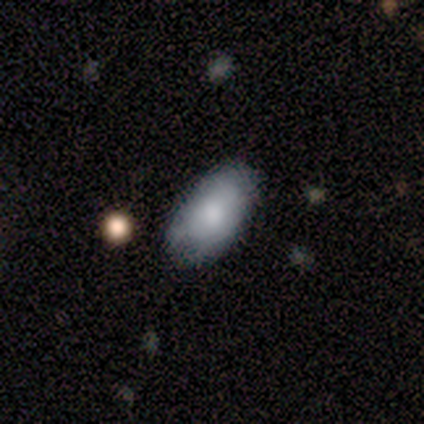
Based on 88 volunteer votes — Morphology: type=smooth (83%); roundness=in between (97%); merging=none (69%).